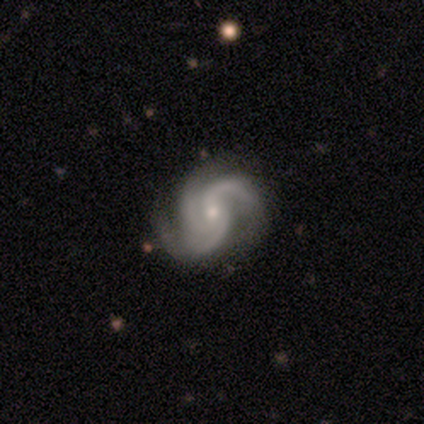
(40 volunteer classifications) A featured or disk galaxy (88%) with no bar (71%), 3 (74%) medium (60%) spiral arms (100%) and a small central bulge (63%).

Vote fractions:
- Smooth or featured? featured or disk: 88% / smooth: 8% / star or artifact: 5%
- Edge-on disk? no: 100% / yes: 0%
- Bar? no: 71% / weak: 26% / strong: 3%
- Spiral arms? yes: 100% / no: 0%
- Spiral winding? medium: 60% / tight: 23% / loose: 17%
- Spiral arm count? 3: 74% / 2: 20% / 1: 3% / can't tell: 3% / 4: 0% / more than 4: 0%
- Bulge size? small: 63% / moderate: 37% / dominant: 0% / large: 0% / none: 0%
- Merging? none: 58% / minor disturbance: 13% / major disturbance: 3% / merger: 0%